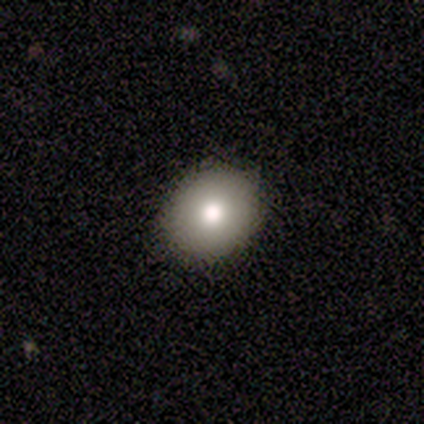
Smooth or featured: smooth — 80% (star or artifact — 20%)
How rounded: round — 100%
Merging: none — 100%